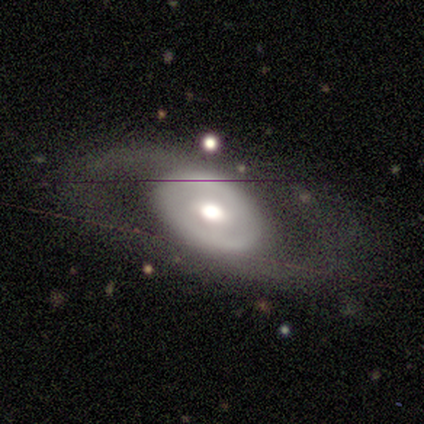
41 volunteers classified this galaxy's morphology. Smooth or featured: featured or disk — 71% (smooth — 22%)
Edge-on disk: no — 93% (yes — 7%)
Bar: no — 41% (weak — 37%)
Spiral arms: yes — 63% (no — 37%)
Spiral winding: medium — 71% (loose — 24%)
Spiral arm count: 2 — 71% (can't tell — 18%)
Bulge size: moderate — 67% (large — 19%)
Merging: none — 76% (major disturbance — 13%)